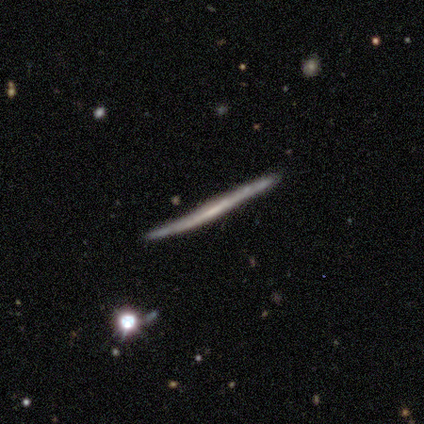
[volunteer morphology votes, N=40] A featured or disk galaxy (70%) viewed edge-on (96%) with no central bulge (93%). Merging: none (69%).